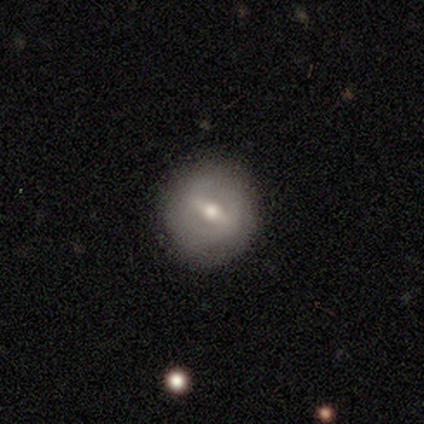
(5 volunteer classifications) Smooth or featured?
  - featured or disk: 80% *
  - smooth: 20%
  - star or artifact: 0%
Edge-on disk?
  - no: 100% *
  - yes: 0%
Bar?
  - strong: 75% *
  - weak: 25%
  - no: 0%
Spiral arms?
  - yes: 75% *
  - no: 25%
Spiral winding?
  - loose: 67% *
  - tight: 33%
  - medium: 0%
Spiral arm count?
  - can't tell: 100% *
  - 1: 0%
  - 2: 0%
  - 3: 0%
  - 4: 0%
  - more than 4: 0%
Bulge size?
  - moderate: 50% *
  - large: 25%
  - small: 25%
  - dominant: 0%
  - none: 0%
Merging?
  - none: 100% *
  - minor disturbance: 0%
  - major disturbance: 0%
  - merger: 0%